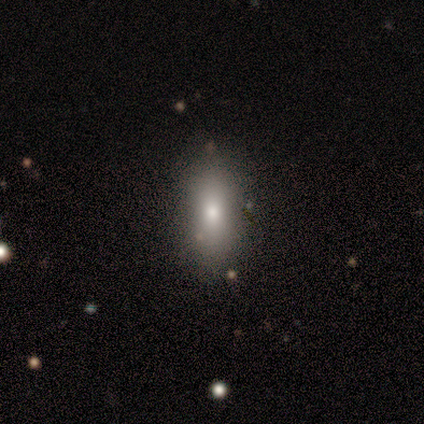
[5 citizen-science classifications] Smooth or featured?
  - smooth: 60% *
  - star or artifact: 40%
  - featured or disk: 0%
How rounded?
  - in between: 67% *
  - cigar-shaped: 33%
  - round: 0%
Merging?
  - none: 100% *
  - minor disturbance: 0%
  - major disturbance: 0%
  - merger: 0%